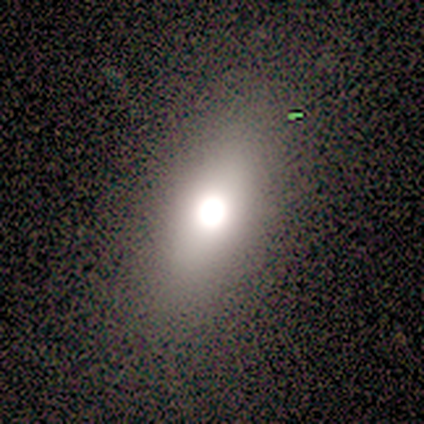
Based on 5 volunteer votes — Overall: star or artifact (80%).